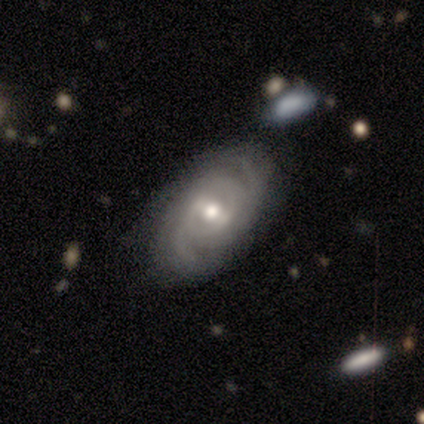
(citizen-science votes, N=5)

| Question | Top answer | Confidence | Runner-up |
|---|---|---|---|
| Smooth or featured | featured or disk | 100% | — |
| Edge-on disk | no | 100% | — |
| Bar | strong | 60% | weak (40%) |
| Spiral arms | yes | 100% | — |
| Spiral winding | medium | 60% | tight (20%) |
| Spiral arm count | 2 | 60% | can't tell (40%) |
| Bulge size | moderate | 60% | large (20%) |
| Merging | none | 60% | minor disturbance (40%) |